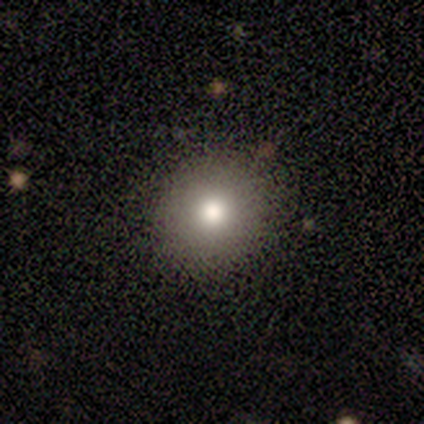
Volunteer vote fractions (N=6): Q: Smooth or featured?
A: smooth (100%)
Q: How rounded?
A: round (100%)
Q: Merging?
A: none (100%)